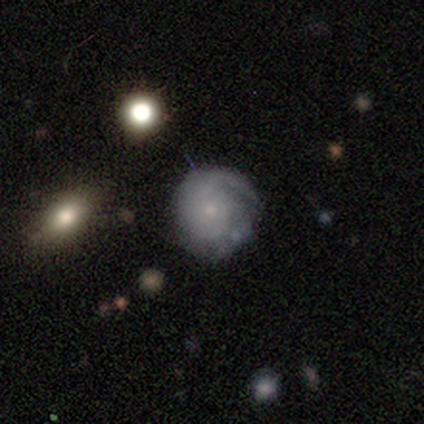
Smooth or featured? featured or disk (68%)
Edge-on disk? no (100%)
Bar? no (85%)
Spiral arms? yes (92%)
Spiral winding? tight (54%)
Spiral arm count? 1 (33%)
Bulge size? small (85%)
Merging? none (67%)